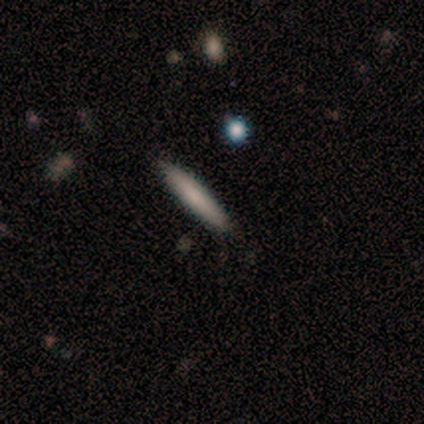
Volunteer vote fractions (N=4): Smooth or featured? 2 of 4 (50%) said smooth. How rounded? 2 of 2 (100%) said cigar-shaped. Merging? 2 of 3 (67%) said none.